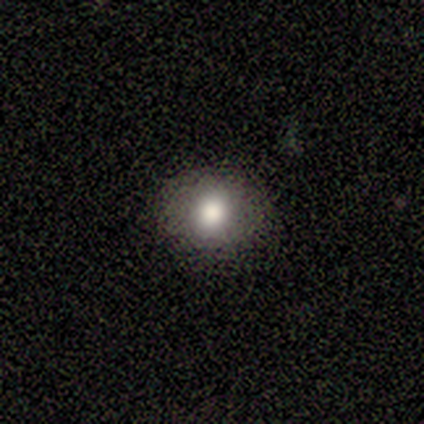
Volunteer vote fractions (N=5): smooth_or_featured: smooth (p=0.60) [alt: featured or disk p=0.40]
how_rounded: round (p=0.67) [alt: in between p=0.33]
merging: none (p=1.00)